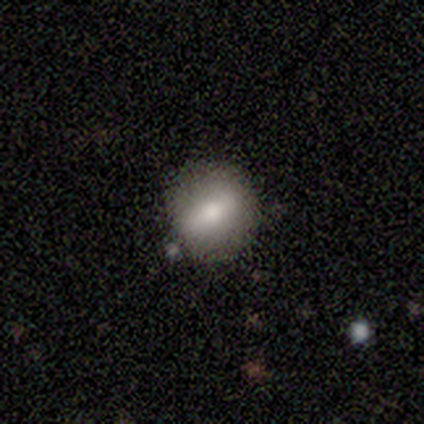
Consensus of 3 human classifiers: A smooth galaxy with no disk features (67%) that is round (100%). Merging: none (100%).